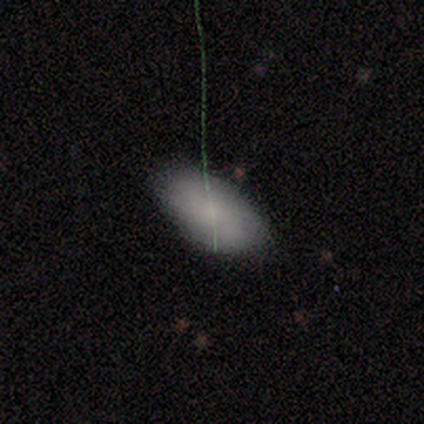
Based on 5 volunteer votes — This is clearly a smooth galaxy (80%). How rounded: clearly in between (100%). Merging: clearly none (100%).